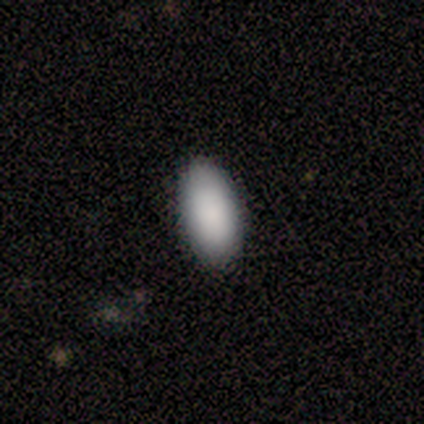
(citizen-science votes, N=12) smooth 83%, star or artifact 17%, featured or disk 0%. Down the decision tree: how rounded — in between (90%); merging — none (90%).